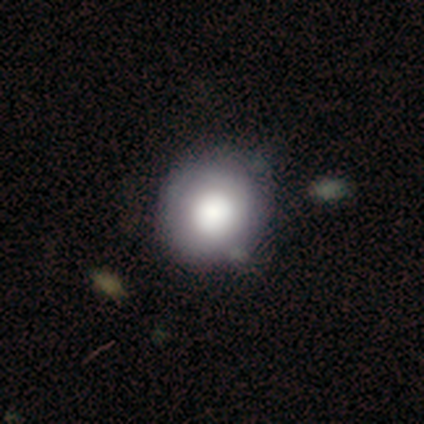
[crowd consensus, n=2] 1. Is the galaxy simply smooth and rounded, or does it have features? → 100% smooth, 0% featured or disk, 0% star or artifact.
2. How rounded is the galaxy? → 100% round, 0% in between, 0% cigar-shaped.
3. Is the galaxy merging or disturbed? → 100% none, 0% minor disturbance, 0% major disturbance, 0% merger.